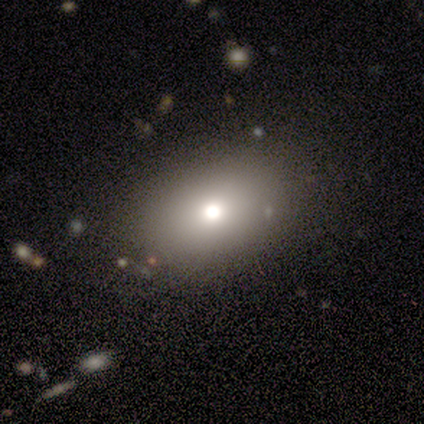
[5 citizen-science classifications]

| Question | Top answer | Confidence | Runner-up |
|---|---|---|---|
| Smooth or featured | smooth | 80% | star or artifact (20%) |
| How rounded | round | 75% | in between (25%) |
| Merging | none | 100% | — |